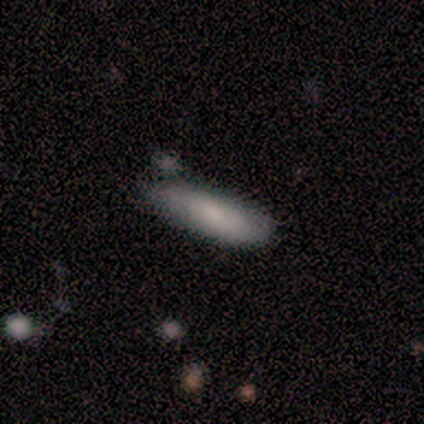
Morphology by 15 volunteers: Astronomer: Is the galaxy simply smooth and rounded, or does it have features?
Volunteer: smooth — 87%.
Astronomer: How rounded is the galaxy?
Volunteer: cigar-shaped — 69%.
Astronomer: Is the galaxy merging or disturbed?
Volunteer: none — 47% (runner-up: minor disturbance, 33%).